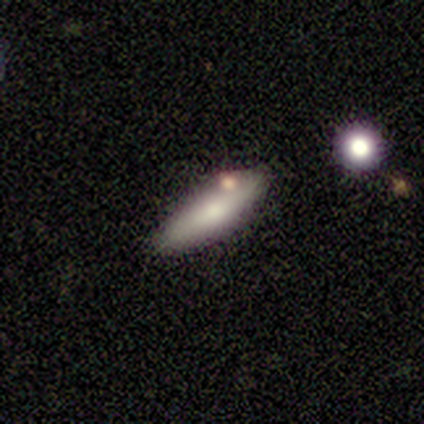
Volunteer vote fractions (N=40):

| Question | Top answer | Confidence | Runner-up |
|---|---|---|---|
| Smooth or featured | smooth | 70% | featured or disk (25%) |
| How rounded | cigar-shaped | 64% | in between (36%) |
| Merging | none | 82% | minor disturbance (11%) |